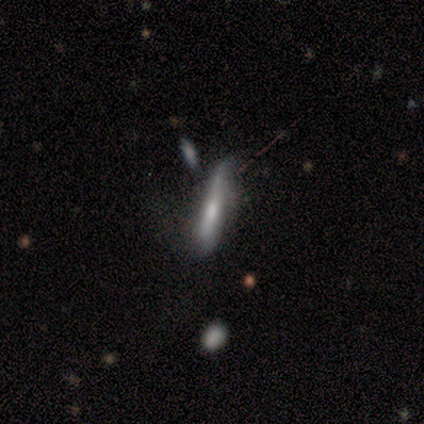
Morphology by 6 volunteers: Volunteers were most divided on "merging": none: 50%, minor disturbance: 33%, merger: 17%, major disturbance: 0%. More confident: how rounded — cigar-shaped (100%); smooth or featured — smooth (67%).